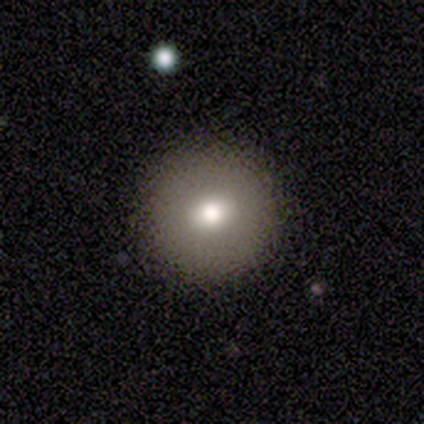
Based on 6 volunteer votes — Smooth or featured? smooth (83%)
How rounded? round (100%)
Merging? none (100%)